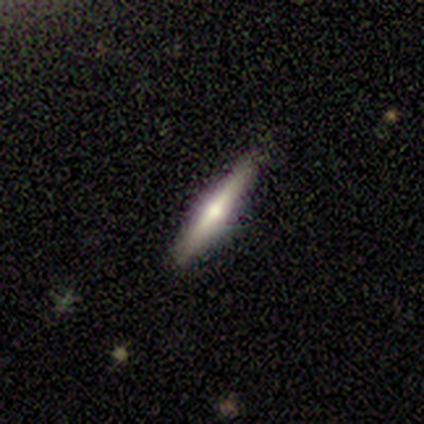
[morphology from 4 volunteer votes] Smooth or featured? featured or disk (75%)
Edge-on disk? yes (100%)
Edge-on bulge? rounded (100%)
Merging? none (100%)